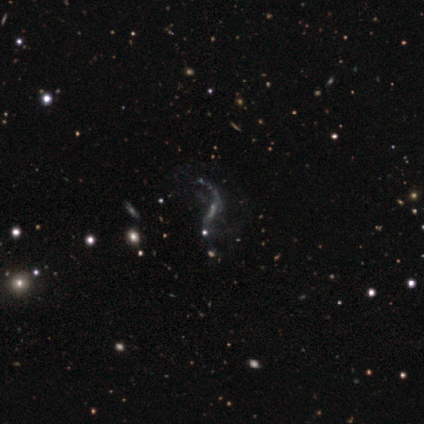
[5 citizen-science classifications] smooth_or_featured: featured or disk (p=0.80) [alt: smooth p=0.20]
disk_edge_on: no (p=0.75) [alt: yes p=0.25]
bar: no (p=0.67) [alt: weak p=0.33]
has_spiral_arms: yes (p=0.67) [alt: no p=0.33]
spiral_winding: loose (p=1.00)
spiral_arm_count: 1 (p=0.50) [tied with: 2 p=0.50]
bulge_size: moderate (p=0.33) [tied with: small p=0.33, none p=0.33]
merging: none (p=0.40) [alt: minor disturbance p=0.20]